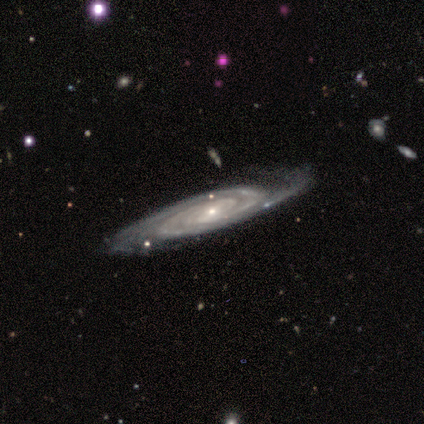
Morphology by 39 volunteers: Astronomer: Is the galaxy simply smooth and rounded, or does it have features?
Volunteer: featured or disk — 97%.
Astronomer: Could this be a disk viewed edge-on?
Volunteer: no — 82%.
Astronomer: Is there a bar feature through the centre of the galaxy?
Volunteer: no — 52% (runner-up: weak, 35%).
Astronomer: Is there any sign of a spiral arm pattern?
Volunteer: yes — 100%.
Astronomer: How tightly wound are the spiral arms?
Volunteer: tight — 77%.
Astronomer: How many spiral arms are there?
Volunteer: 2 — 61%.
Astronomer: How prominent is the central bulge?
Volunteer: small — 74%.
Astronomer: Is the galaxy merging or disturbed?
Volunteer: none — 82%.